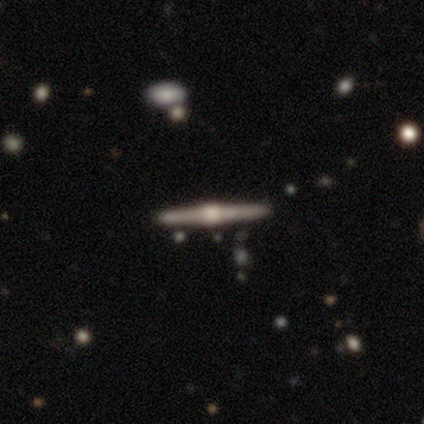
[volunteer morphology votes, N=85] Q: Smooth or featured?
A: featured or disk (87%); runner-up: smooth (9%)
Q: Edge-on disk?
A: yes (99%); runner-up: no (1%)
Q: Edge-on bulge?
A: rounded (95%); runner-up: boxy (5%)
Q: Merging?
A: none (91%); runner-up: minor disturbance (6%)